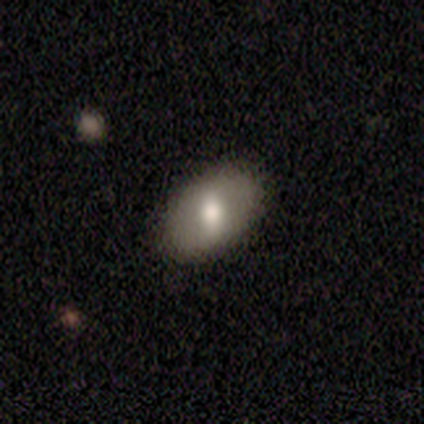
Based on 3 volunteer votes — A smooth galaxy with no disk features (100%) that is in between round and cigar-shaped (100%). Merging: none (100%).